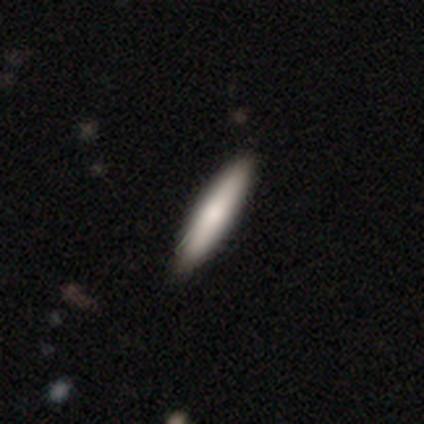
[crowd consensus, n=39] Volunteers were most divided on "smooth or featured": smooth: 67%, featured or disk: 33%, star or artifact: 0%. More confident: how rounded — cigar-shaped (69%); merging — none (64%).